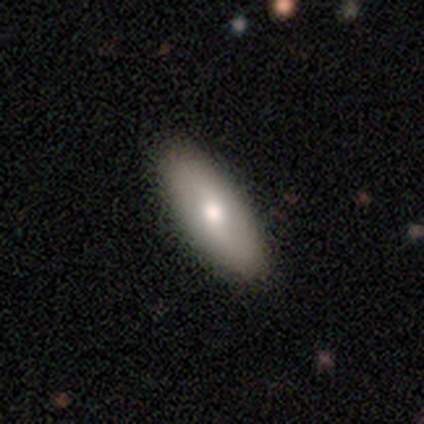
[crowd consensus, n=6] Overall: smooth (67%; featured or disk 33%). How rounded: in between (75%). Merging: none (83%).